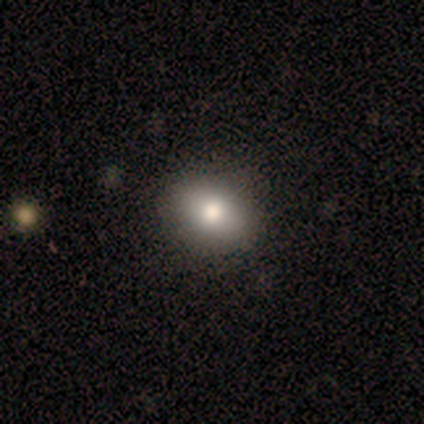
A smooth galaxy with no disk features (50%) that is in between round and cigar-shaped (83%). Merging: none (82%).